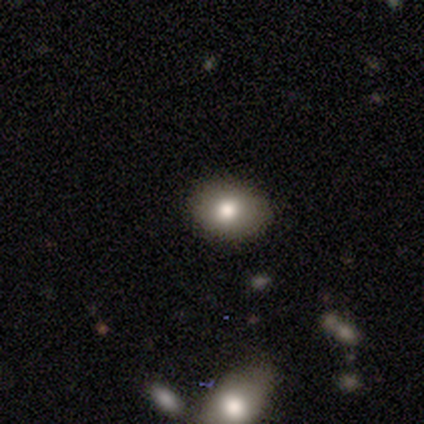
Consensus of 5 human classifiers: Smooth or featured?
  - smooth: 80% *
  - featured or disk: 20%
  - star or artifact: 0%
How rounded?
  - in between: 75% *
  - round: 25%
  - cigar-shaped: 0%
Merging?
  - none: 60% *
  - minor disturbance: 40%
  - major disturbance: 0%
  - merger: 0%